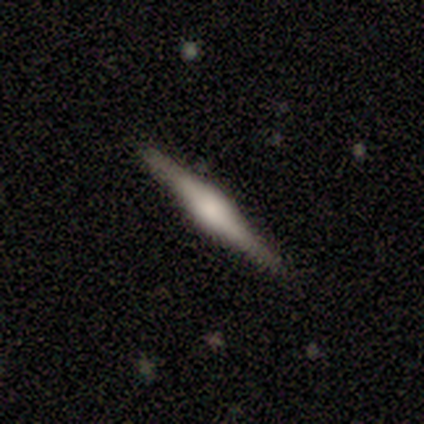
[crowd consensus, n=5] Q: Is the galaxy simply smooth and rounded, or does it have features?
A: featured or disk — 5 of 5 (100%).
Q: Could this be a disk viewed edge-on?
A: yes — 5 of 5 (100%).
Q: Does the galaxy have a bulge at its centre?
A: rounded — 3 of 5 (60%).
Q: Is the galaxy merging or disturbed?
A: none — 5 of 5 (100%).